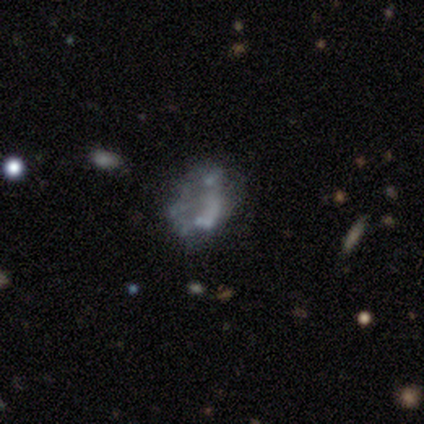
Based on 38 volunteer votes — Smooth or featured? 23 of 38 (61%) said featured or disk. Edge-on disk? 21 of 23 (91%) said no. Bar? 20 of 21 (95%) said no. Spiral arms? 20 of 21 (95%) said no. Bulge size? 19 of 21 (90%) said none. Merging? 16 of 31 (52%) said none.